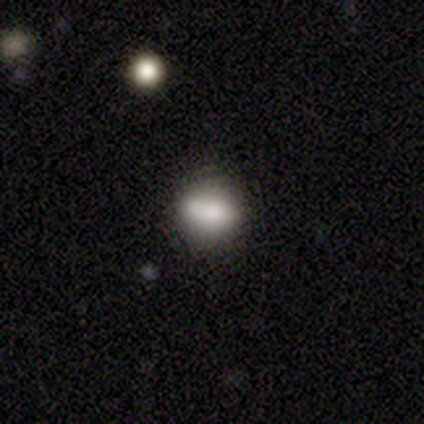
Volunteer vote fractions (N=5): Smooth or featured?
  - smooth: 80% *
  - featured or disk: 20%
  - star or artifact: 0%
How rounded?
  - in between: 100% *
  - round: 0%
  - cigar-shaped: 0%
Merging?
  - none: 100% *
  - minor disturbance: 0%
  - major disturbance: 0%
  - merger: 0%